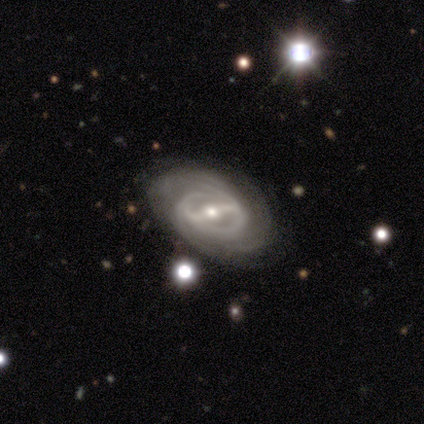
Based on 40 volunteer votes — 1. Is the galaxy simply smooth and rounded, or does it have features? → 95% featured or disk, 5% smooth, 0% star or artifact.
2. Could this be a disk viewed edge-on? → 100% no, 0% yes.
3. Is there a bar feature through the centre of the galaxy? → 74% strong, 21% weak, 5% no.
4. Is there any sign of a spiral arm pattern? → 97% yes, 3% no.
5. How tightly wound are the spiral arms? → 62% tight, 32% medium, 5% loose.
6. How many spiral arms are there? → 32% can't tell, 30% 2, 19% 4, 14% 3, 5% more than 4, 0% 1.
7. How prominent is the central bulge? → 55% moderate, 45% small, 0% dominant, 0% large, 0% none.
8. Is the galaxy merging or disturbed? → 78% none, 20% minor disturbance, 2% major disturbance, 0% merger.